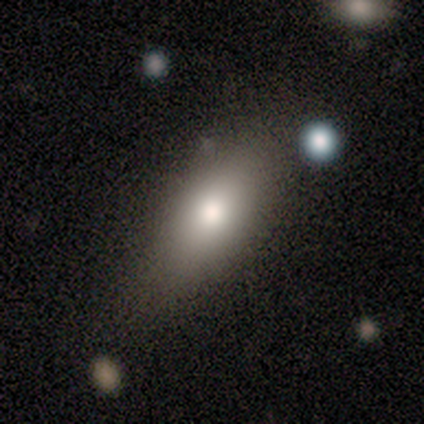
smooth 100%, featured or disk 0%, star or artifact 0%. Down the decision tree: how rounded — in between (100%); merging — none (80%).